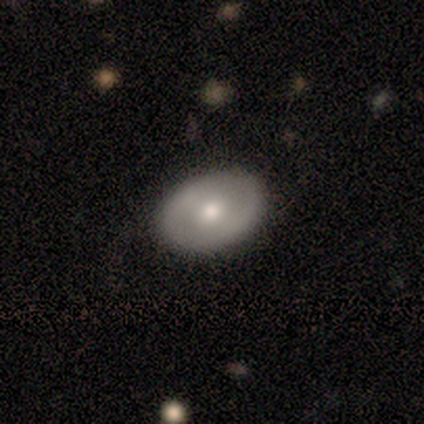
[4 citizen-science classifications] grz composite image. It shows a featured or disk galaxy (75%) with no bar (67%), no spiral arms (100%) and a moderate central bulge (100%). Merging: none (100%).